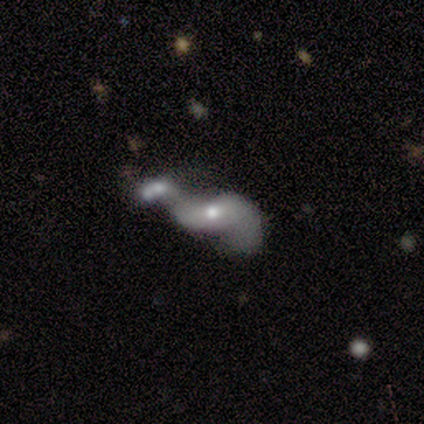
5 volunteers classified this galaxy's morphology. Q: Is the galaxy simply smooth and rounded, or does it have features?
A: featured or disk — 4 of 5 (80%).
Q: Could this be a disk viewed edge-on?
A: no — 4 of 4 (100%).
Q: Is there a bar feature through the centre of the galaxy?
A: weak — 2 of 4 (50%, tied with no).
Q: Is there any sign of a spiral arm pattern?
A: yes — 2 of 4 (50%, tied with no).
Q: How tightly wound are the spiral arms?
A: medium — 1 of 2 (50%, tied with loose).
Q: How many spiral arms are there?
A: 2 — 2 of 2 (100%).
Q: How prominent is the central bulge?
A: moderate — 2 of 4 (50%, tied with small).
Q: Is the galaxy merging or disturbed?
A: merger — 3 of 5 (60%).